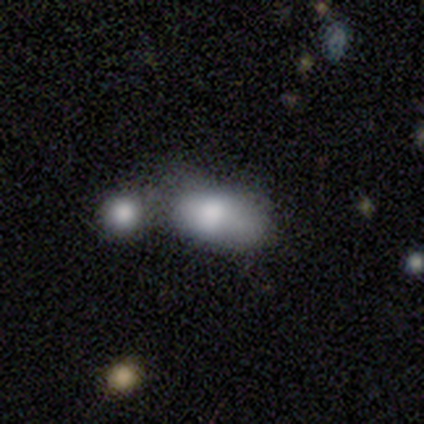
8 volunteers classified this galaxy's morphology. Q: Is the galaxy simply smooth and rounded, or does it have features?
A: smooth — 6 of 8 (75%).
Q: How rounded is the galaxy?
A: in between — 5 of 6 (83%).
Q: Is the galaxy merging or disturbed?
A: merger — 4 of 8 (50%).